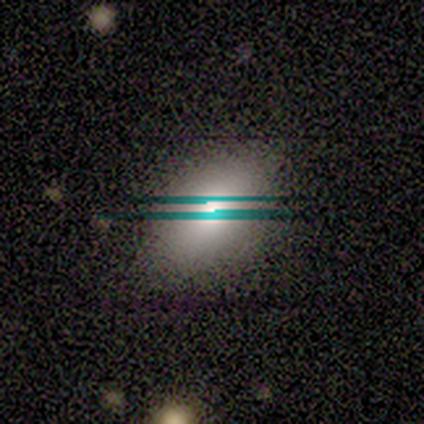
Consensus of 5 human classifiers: smooth_or_featured: smooth (p=0.80) [alt: featured or disk p=0.20]
how_rounded: in between (p=1.00)
merging: minor disturbance (p=0.60) [alt: none p=0.20]